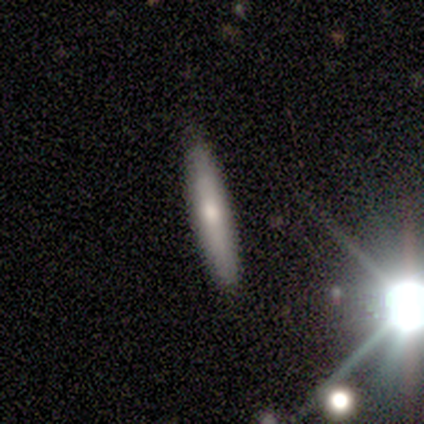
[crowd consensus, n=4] This is possibly a smooth galaxy (50%). How rounded: clearly cigar-shaped (100%). Merging: likely none (67%).